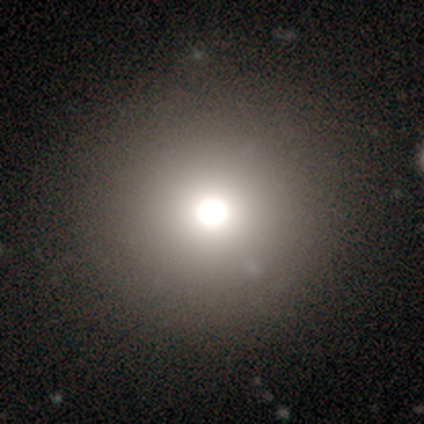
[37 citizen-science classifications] smooth-or-featured: smooth: 70% | star or artifact: 19% | featured or disk: 11%
  how-rounded: round: 100% | in between: 0% | cigar-shaped: 0%
  merging: none: 63% | merger: 7% | minor disturbance: 3% | major disturbance: 0%